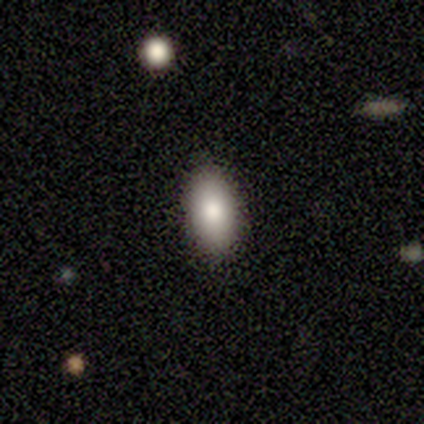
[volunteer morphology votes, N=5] Smooth or featured? 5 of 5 (100%) said smooth. How rounded? 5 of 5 (100%) said in between. Merging? 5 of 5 (100%) said none.